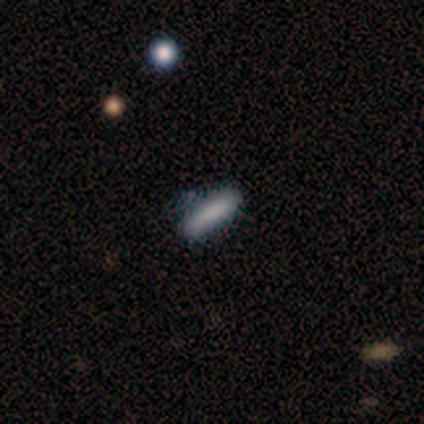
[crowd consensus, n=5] Smooth or featured? 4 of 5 (80%) said smooth. How rounded? 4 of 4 (100%) said cigar-shaped. Merging? 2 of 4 (50%) said none.